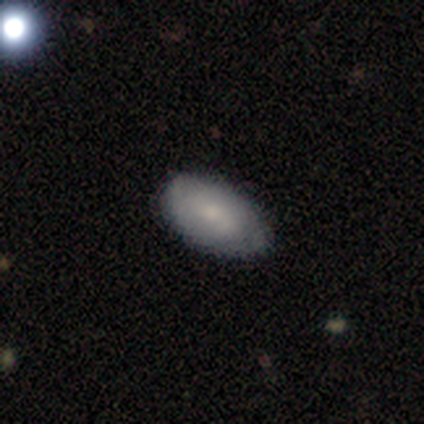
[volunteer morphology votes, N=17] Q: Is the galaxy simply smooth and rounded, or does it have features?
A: smooth — 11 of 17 (65%).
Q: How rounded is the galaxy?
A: in between — 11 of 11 (100%).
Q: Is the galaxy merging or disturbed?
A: none — 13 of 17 (76%).